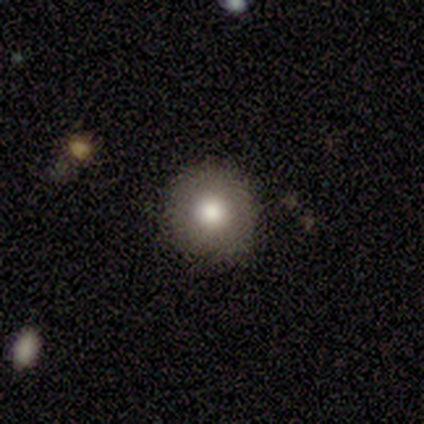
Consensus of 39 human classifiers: Smooth or featured? smooth (79%)
How rounded? round (97%)
Merging? none (92%)